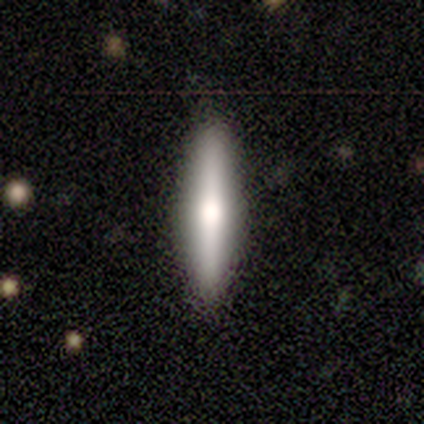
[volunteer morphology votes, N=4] Q: Smooth or featured?
A: featured or disk (75%); runner-up: smooth (25%)
Q: Edge-on disk?
A: yes (67%); runner-up: no (33%)
Q: Edge-on bulge?
A: rounded (100%)
Q: Merging?
A: none (100%)